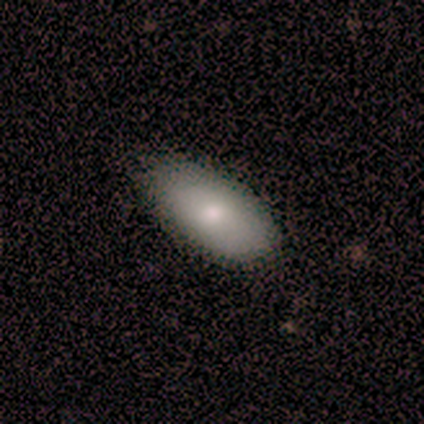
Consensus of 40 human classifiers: Smooth or featured? 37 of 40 (92%) said smooth. How rounded? 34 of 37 (92%) said in between. Merging? 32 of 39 (82%) said none.